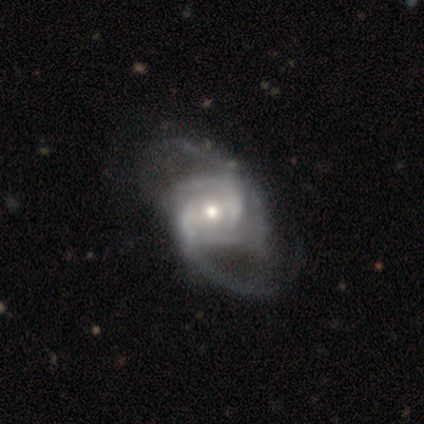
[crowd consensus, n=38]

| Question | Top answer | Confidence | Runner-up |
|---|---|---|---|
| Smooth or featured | featured or disk | 89% | smooth (5%) |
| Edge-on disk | no | 100% | — |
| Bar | weak | 50% | no (47%) |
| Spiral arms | yes | 97% | no (3%) |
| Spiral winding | medium | 52% | loose (30%) |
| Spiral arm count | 2 | 58% | can't tell (21%) |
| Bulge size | moderate | 65% | small (29%) |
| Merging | none | 44% | minor disturbance (17%) |